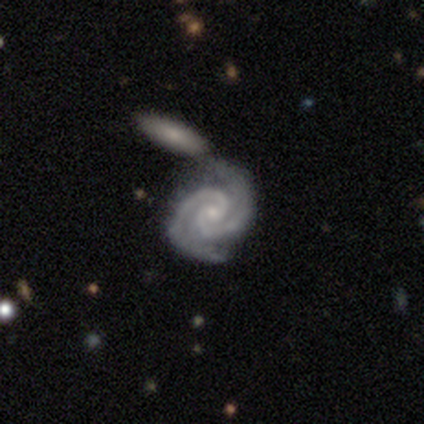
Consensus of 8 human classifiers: Morphology: type=featured or disk (100%); edge-on=no (100%); bar=no (75%); spiral arms=yes (100%); winding=tight (75%); arm count=2 (100%); bulge=small (88%); merging=none (50%).